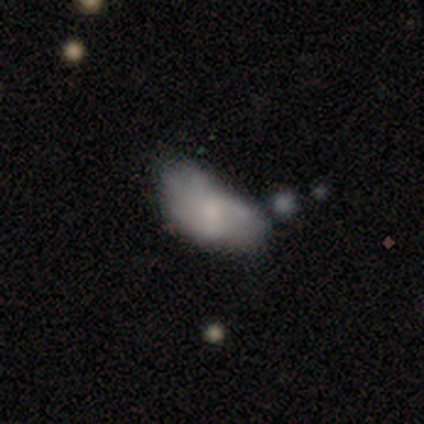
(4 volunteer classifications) smooth 50%, featured or disk 25%, star or artifact 25%. Down the decision tree: how rounded — in between (100%); merging — none (67%).